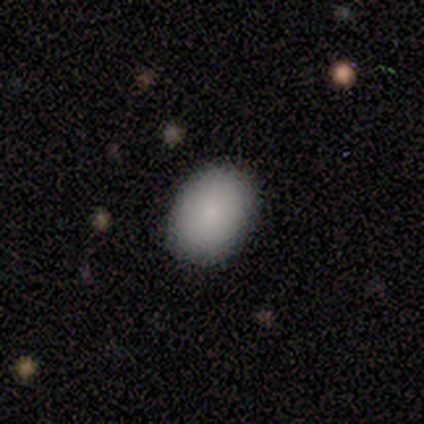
Smooth or featured: smooth — 80% (featured or disk — 20%)
How rounded: in between — 75% (round — 25%)
Merging: none — 100%